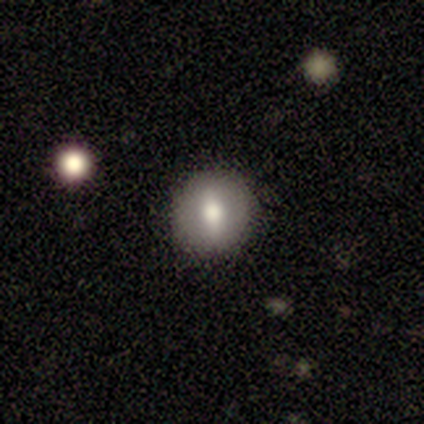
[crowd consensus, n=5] Volunteers were most divided on "smooth or featured": smooth: 80%, featured or disk: 20%, star or artifact: 0%. More confident: how rounded — round (100%); merging — none (100%).